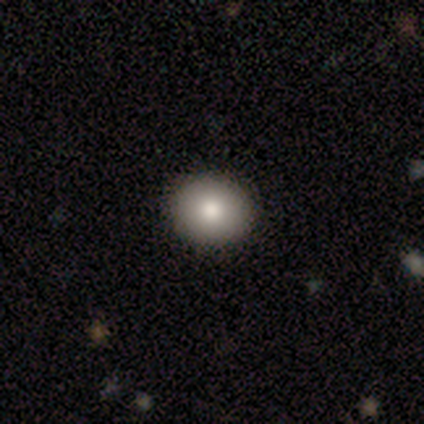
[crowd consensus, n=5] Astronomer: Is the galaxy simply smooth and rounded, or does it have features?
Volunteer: smooth — 100%.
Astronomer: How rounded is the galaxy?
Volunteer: round — 80%.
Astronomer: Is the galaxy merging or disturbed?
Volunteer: none — 80%.